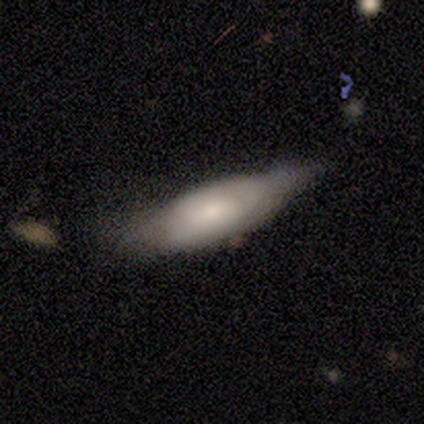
smooth_or_featured: featured or disk (p=0.50) [alt: smooth p=0.47]
disk_edge_on: no (p=0.67) [alt: yes p=0.33]
bar: no (p=0.75) [alt: weak p=0.25]
has_spiral_arms: yes (p=0.67) [alt: no p=0.33]
spiral_winding: medium (p=0.50) [alt: tight p=0.38]
spiral_arm_count: can't tell (p=0.75) [alt: 2 p=0.25]
bulge_size: moderate (p=0.75) [alt: small p=0.17]
merging: minor disturbance (p=0.34) [alt: none p=0.26]